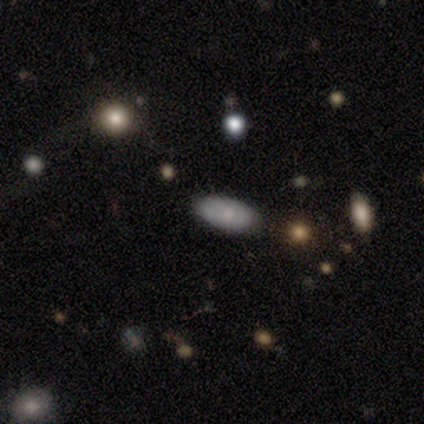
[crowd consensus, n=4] Morphology: type=smooth (50%, tied with featured or disk); roundness=in between (100%); merging=none (100%).